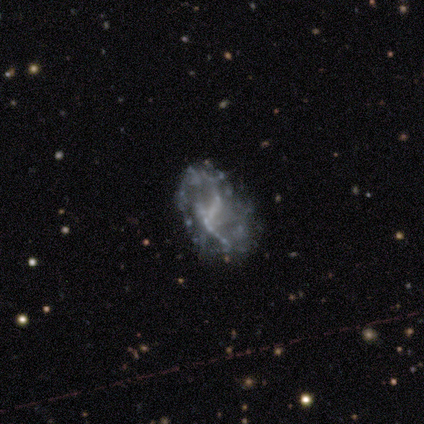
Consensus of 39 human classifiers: A featured or disk galaxy (82%) with no bar (62%), no spiral arms (66%) and no central bulge (91%). Merging: none (56%).